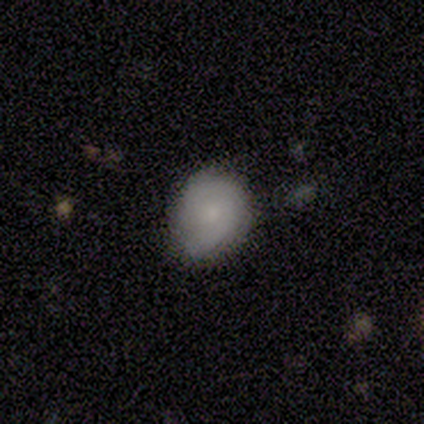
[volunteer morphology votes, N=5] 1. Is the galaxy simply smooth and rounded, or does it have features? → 60% featured or disk, 40% smooth, 0% star or artifact.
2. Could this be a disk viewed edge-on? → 67% no, 33% yes.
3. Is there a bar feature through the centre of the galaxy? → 100% weak, 0% strong, 0% no.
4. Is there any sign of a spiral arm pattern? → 100% yes, 0% no.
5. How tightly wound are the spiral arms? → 50% tight (tied), 50% medium (tied), 0% loose.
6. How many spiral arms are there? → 50% 2 (tied), 50% can't tell (tied), 0% 1, 0% 3, 0% 4, 0% more than 4.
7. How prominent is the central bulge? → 50% small (tied), 50% none (tied), 0% dominant, 0% large, 0% moderate.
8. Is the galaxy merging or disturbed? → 60% none, 40% minor disturbance, 0% major disturbance, 0% merger.